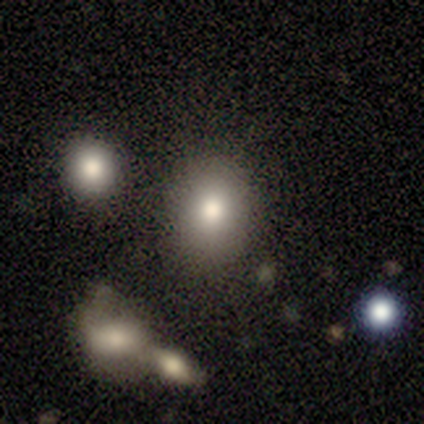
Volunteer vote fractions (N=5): This is clearly a smooth galaxy (100%). How rounded: clearly round (80%). Merging: clearly none (80%).